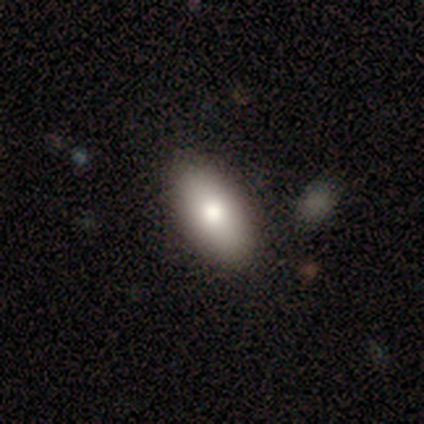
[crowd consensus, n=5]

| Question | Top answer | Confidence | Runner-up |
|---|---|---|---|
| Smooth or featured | smooth | 60% | featured or disk (40%) |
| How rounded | in between | 100% | — |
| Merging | none | 80% | major disturbance (20%) |